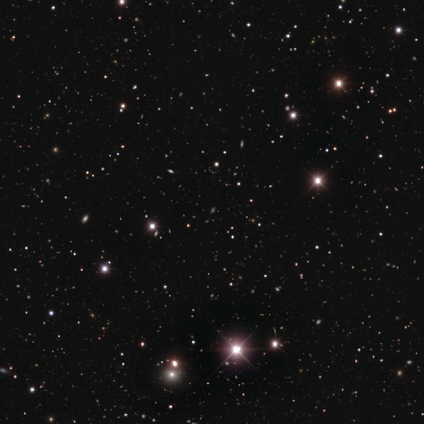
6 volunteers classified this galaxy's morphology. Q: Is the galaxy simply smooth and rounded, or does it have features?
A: star or artifact — 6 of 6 (100%).